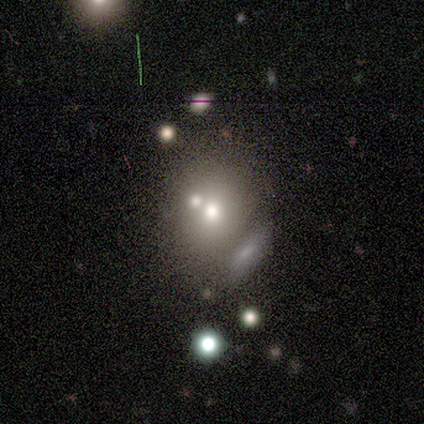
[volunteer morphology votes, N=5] Volunteers were most divided on "merging": minor disturbance: 50%, none: 25%, merger: 25%, major disturbance: 0%. More confident: how rounded — in between (100%); smooth or featured — smooth (60%).